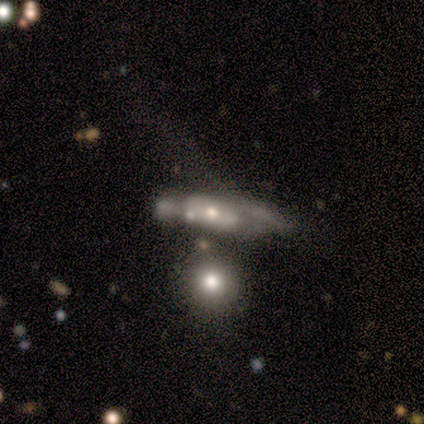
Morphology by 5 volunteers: Smooth or featured?
  - smooth: 80% *
  - featured or disk: 20%
  - star or artifact: 0%
How rounded?
  - in between: 50% *
  - round: 25%
  - cigar-shaped: 25%
Merging?
  - none: 40% * (tied)
  - minor disturbance: 40% * (tied)
  - major disturbance: 20%
  - merger: 0%